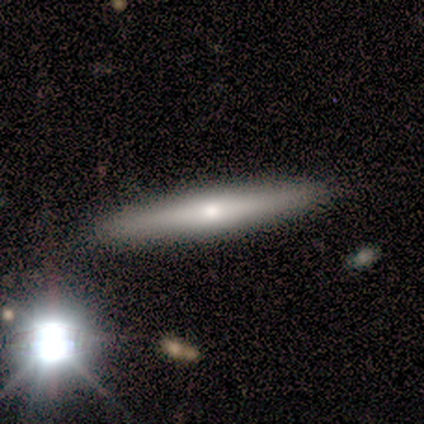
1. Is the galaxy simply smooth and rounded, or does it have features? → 50% smooth (tied), 50% featured or disk (tied), 0% star or artifact.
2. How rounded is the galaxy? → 100% cigar-shaped, 0% round, 0% in between.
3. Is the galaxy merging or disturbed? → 100% none, 0% minor disturbance, 0% major disturbance, 0% merger.